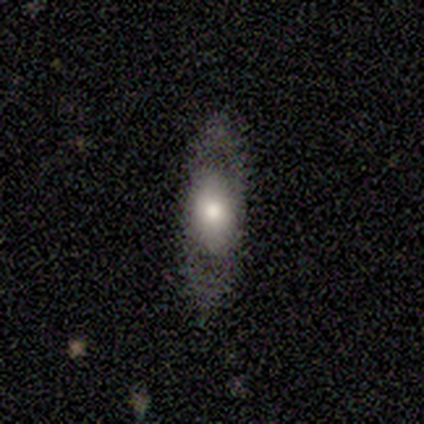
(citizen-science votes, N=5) A smooth galaxy with no disk features (100%) that is in between round and cigar-shaped (40%, tied with cigar-shaped). Merging: none (40%, tied with major disturbance).